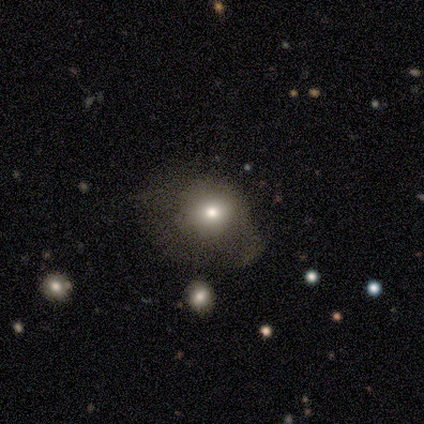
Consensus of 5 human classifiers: Smooth or featured: smooth — 40% (tied with featured or disk — 40%)
How rounded: round — 50% (tied with in between — 50%)
Merging: minor disturbance — 50% (tied with major disturbance — 50%)